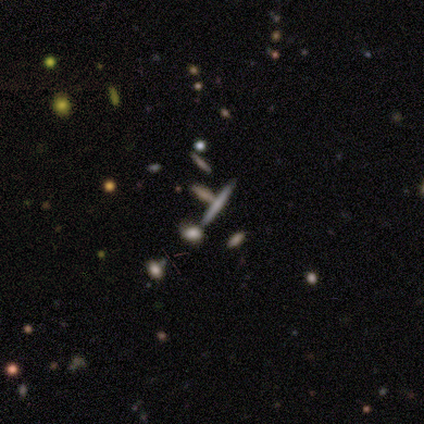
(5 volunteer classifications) Smooth or featured: smooth — 40% (tied with featured or disk — 40%)
How rounded: cigar-shaped — 100%
Merging: none — 50% (major disturbance — 25%)